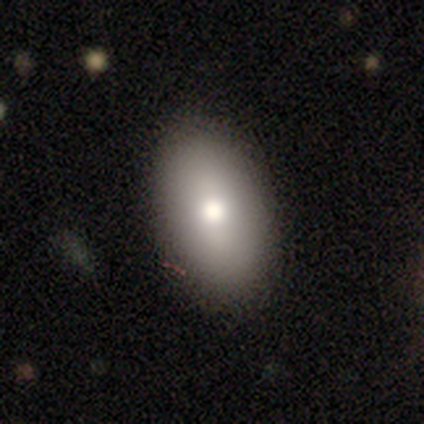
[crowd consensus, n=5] This appears to be a smooth galaxy with no disk features (100%) that is in between round and cigar-shaped (100%). Merging: none (100%).